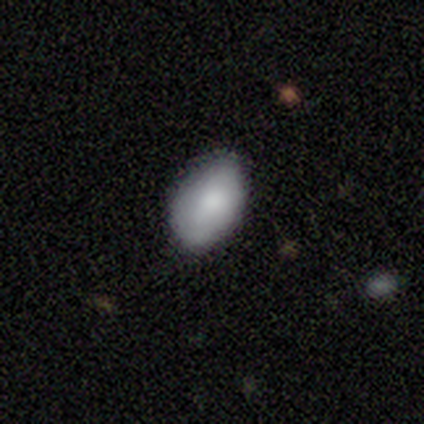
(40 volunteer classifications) Smooth or featured? smooth (82%)
How rounded? in between (94%)
Merging? none (87%)